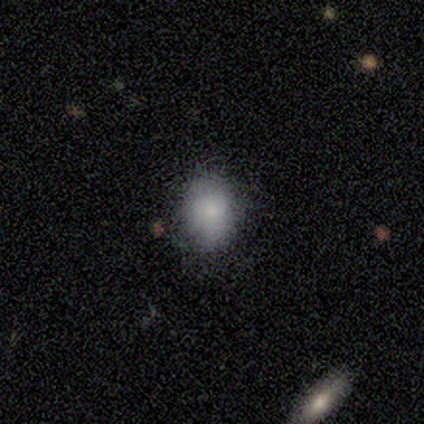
This appears to be a smooth galaxy with no disk features (75%) that is round (67%). Merging: none (100%).